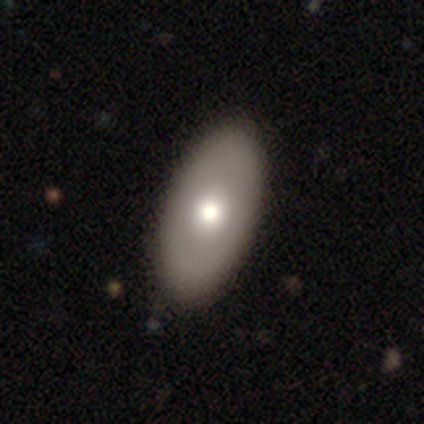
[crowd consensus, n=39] smooth_or_featured: featured or disk (p=0.51) [alt: smooth p=0.46]
disk_edge_on: no (p=0.80) [alt: yes p=0.20]
bar: no (p=0.88) [alt: strong p=0.06]
has_spiral_arms: no (p=0.94) [alt: yes p=0.06]
bulge_size: moderate (p=0.81) [alt: large p=0.12]
merging: none (p=0.84) [alt: minor disturbance p=0.13]